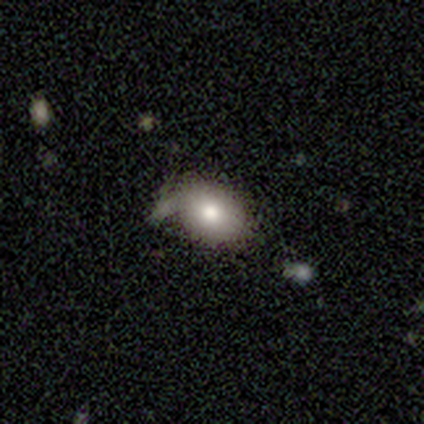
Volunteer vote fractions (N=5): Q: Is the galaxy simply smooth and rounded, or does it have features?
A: smooth — 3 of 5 (60%).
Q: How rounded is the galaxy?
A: in between — 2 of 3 (67%).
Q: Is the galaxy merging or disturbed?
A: minor disturbance — 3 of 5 (60%).